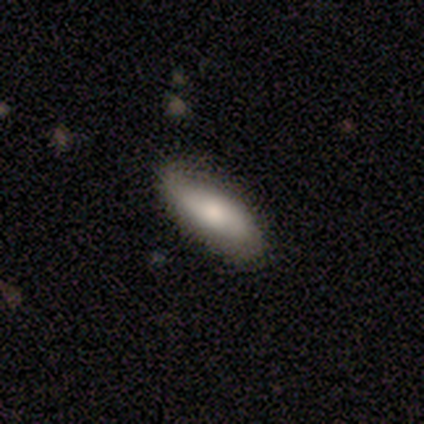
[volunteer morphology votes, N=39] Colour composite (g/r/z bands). It shows a smooth galaxy with no disk features (69%) that is in between round and cigar-shaped (70%). Merging: none (68%).